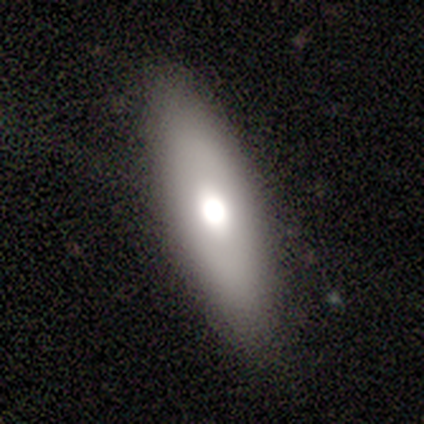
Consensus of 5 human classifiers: smooth_or_featured: smooth (p=0.80) [alt: featured or disk p=0.20]
how_rounded: in between (p=0.50) [tied with: cigar-shaped p=0.50]
merging: none (p=1.00)